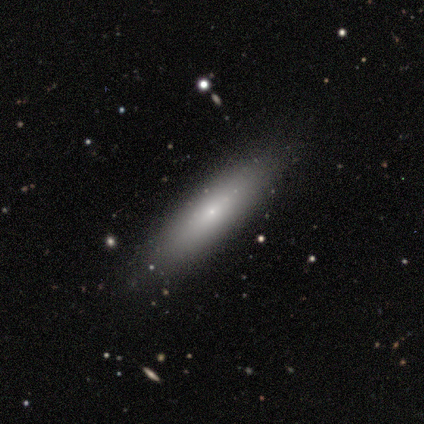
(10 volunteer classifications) A smooth galaxy with no disk features (70%) that is cigar-shaped (86%). Merging: none (78%).